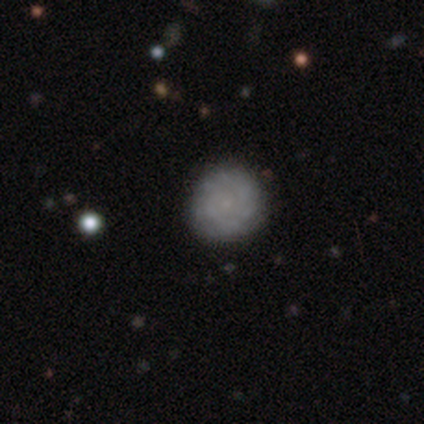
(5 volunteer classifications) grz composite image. It shows a smooth galaxy with no disk features (100%) that is round (100%). Merging: none (80%).